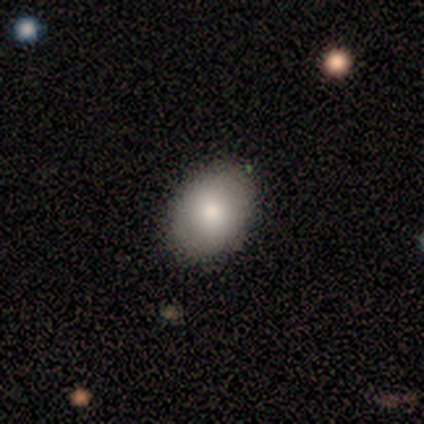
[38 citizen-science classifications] A smooth galaxy with no disk features (82%) that is in between round and cigar-shaped (65%). Merging: none (67%).